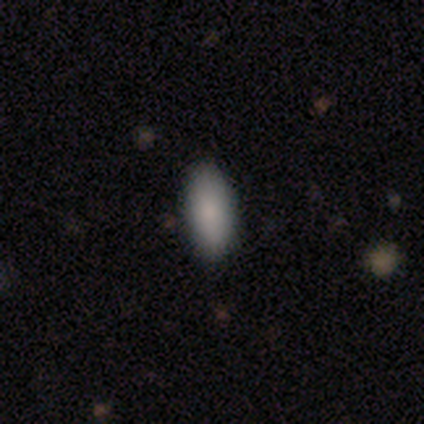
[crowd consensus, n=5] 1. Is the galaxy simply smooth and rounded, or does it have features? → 100% smooth, 0% featured or disk, 0% star or artifact.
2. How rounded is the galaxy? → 80% in between, 20% cigar-shaped, 0% round.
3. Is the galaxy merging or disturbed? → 100% none, 0% minor disturbance, 0% major disturbance, 0% merger.